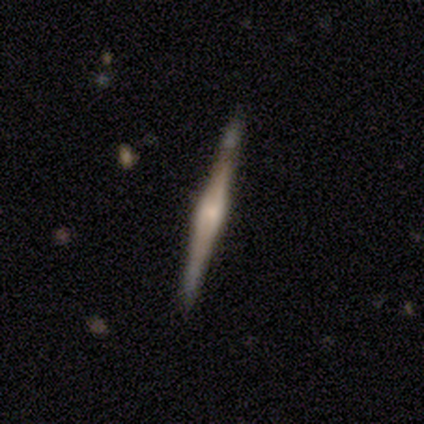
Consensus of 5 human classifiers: Smooth or featured? featured or disk (100%)
Edge-on disk? yes (100%)
Edge-on bulge? rounded (80%)
Merging? none (100%)